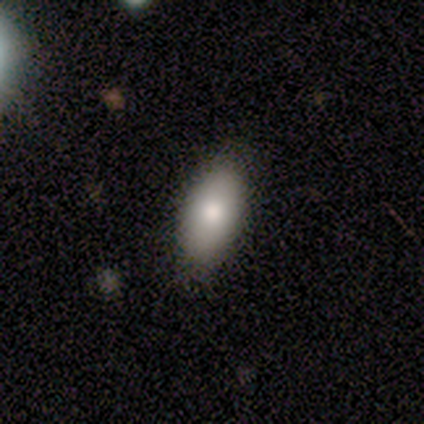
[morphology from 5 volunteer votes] Q: Smooth or featured?
A: featured or disk (60%); runner-up: smooth (40%)
Q: Edge-on disk?
A: yes (67%); runner-up: no (33%)
Q: Edge-on bulge?
A: rounded (100%)
Q: Merging?
A: none (80%); runner-up: minor disturbance (20%)